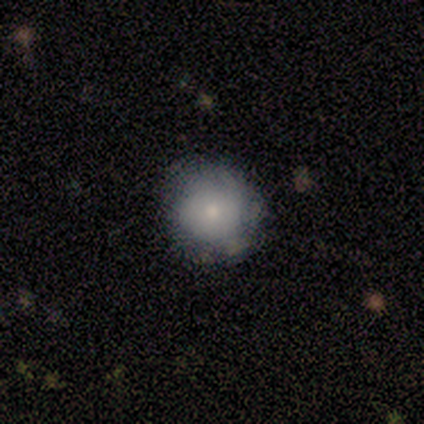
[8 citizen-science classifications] Q: Smooth or featured?
A: smooth (88%); runner-up: featured or disk (12%)
Q: How rounded?
A: round (100%)
Q: Merging?
A: none (75%); runner-up: minor disturbance (25%)